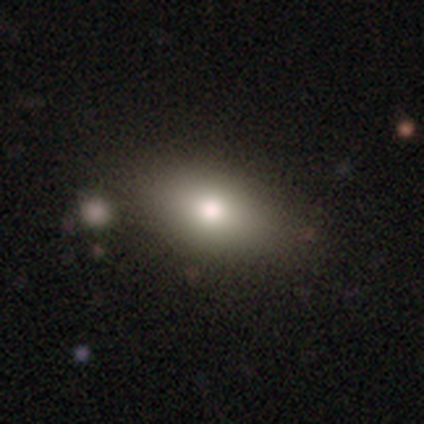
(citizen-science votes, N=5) A smooth galaxy with no disk features (60%) that is in between round and cigar-shaped (100%). Merging: none (60%).